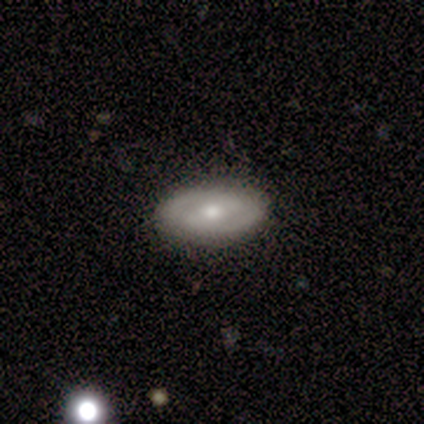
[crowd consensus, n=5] Overall: featured or disk (100%). Edge-on disk: no (80%). Bar: weak (50%, tied with no). Spiral arms: yes (50%, tied with no). Spiral arm count: 2 (100%). Spiral winding: tight (50%, tied with loose). Bulge size: moderate (50%, tied with small). Merging: none (100%).